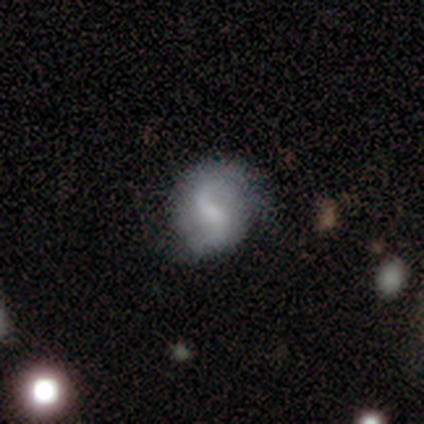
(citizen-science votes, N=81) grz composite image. It shows a featured or disk galaxy (64%) with a weak bar (71%), 2 (88%) loose (65%) spiral arms (96%) and a moderate central bulge (35%, tied with small). Merging: none (82%).